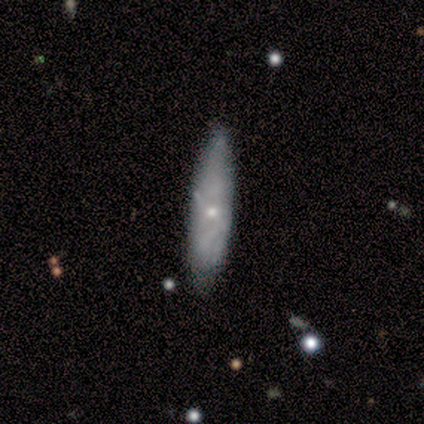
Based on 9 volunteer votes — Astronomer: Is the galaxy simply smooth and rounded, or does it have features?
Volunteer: smooth — 56% (runner-up: featured or disk, 44%).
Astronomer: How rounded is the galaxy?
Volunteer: cigar-shaped — 100%.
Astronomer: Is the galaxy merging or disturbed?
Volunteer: none — 67%.